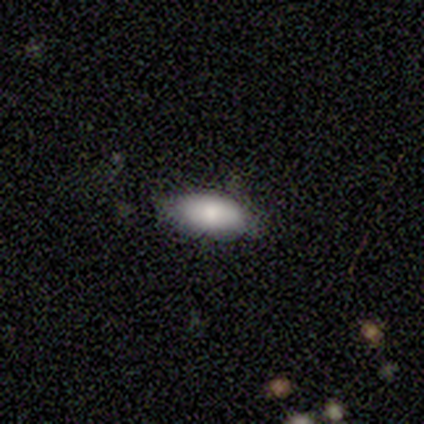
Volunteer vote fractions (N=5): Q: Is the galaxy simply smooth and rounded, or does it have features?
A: smooth — 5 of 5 (100%).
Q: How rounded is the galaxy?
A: in between — 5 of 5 (100%).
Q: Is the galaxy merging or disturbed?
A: none — 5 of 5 (100%).